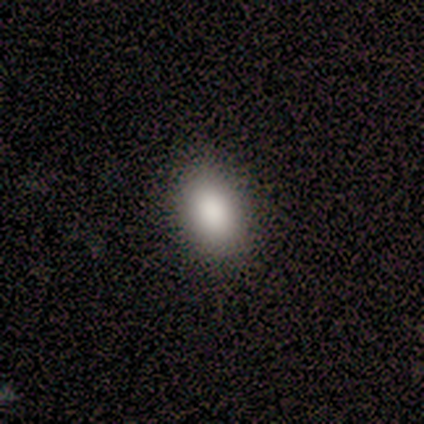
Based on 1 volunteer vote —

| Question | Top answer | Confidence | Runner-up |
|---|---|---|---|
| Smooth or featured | smooth | 100% | — |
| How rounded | in between | 100% | — |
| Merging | none | 100% | — |